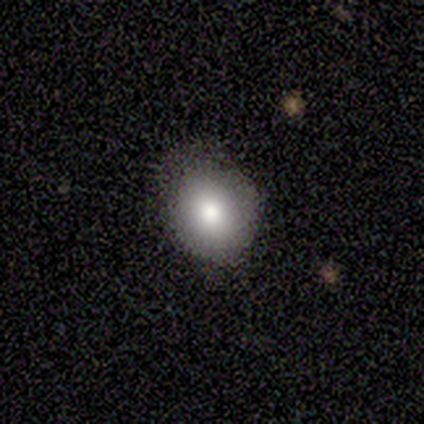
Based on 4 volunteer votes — This appears to be a smooth galaxy with no disk features (100%) that is round (75%). Merging: none (50%, tied with minor disturbance).